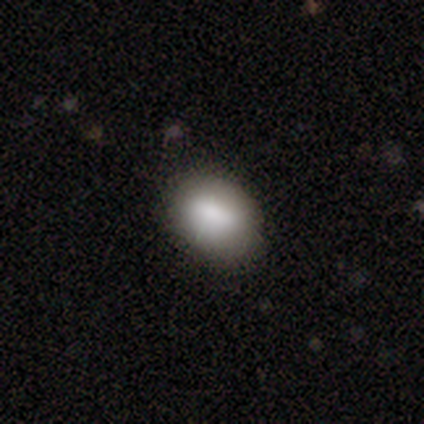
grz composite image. It shows a smooth galaxy with no disk features (100%) that is in between round and cigar-shaped (80%). Merging: none (80%).